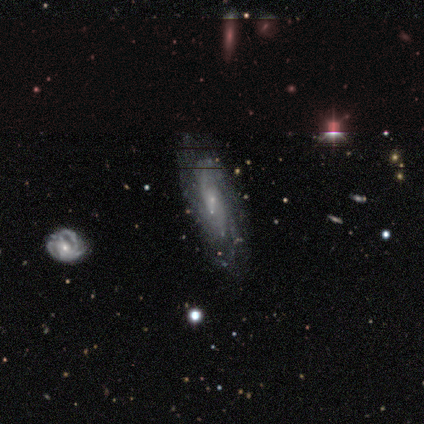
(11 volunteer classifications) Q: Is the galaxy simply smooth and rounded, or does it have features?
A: featured or disk — 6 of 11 (55%).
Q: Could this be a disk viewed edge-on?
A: no — 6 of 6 (100%).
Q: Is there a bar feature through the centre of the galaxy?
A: weak — 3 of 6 (50%, tied with no).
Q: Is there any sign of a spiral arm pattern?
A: yes — 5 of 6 (83%).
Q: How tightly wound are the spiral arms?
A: medium — 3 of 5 (60%).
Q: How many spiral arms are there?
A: can't tell — 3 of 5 (60%).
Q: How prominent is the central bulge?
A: small — 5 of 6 (83%).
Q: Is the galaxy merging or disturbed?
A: none — 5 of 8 (62%).